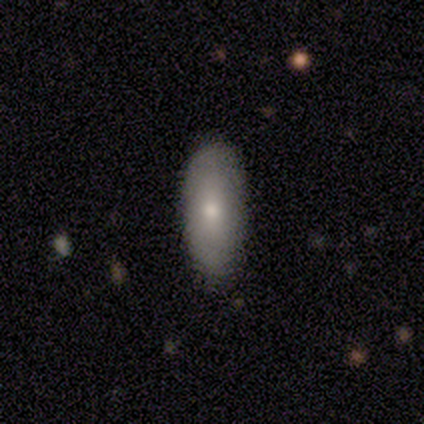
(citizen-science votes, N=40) Overall: smooth (75%). How rounded: in between (87%). Merging: none (87%).